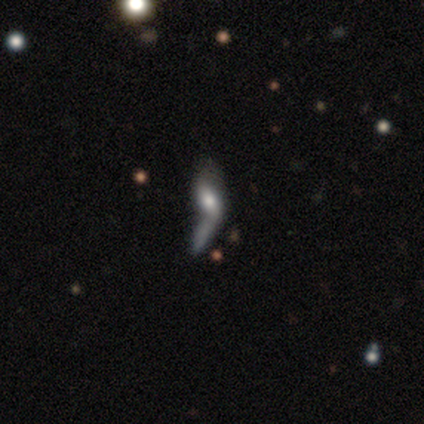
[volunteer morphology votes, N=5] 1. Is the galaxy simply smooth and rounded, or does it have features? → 100% smooth, 0% featured or disk, 0% star or artifact.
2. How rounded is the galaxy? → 80% in between, 20% cigar-shaped, 0% round.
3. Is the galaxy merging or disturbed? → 100% merger, 0% none, 0% minor disturbance, 0% major disturbance.